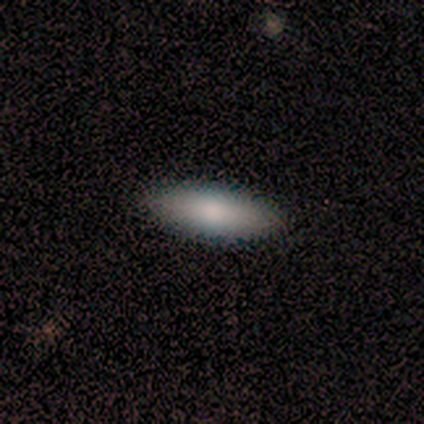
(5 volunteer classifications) Q: Smooth or featured?
A: smooth (80%); runner-up: featured or disk (20%)
Q: How rounded?
A: cigar-shaped (75%); runner-up: in between (25%)
Q: Merging?
A: none (80%); runner-up: minor disturbance (20%)